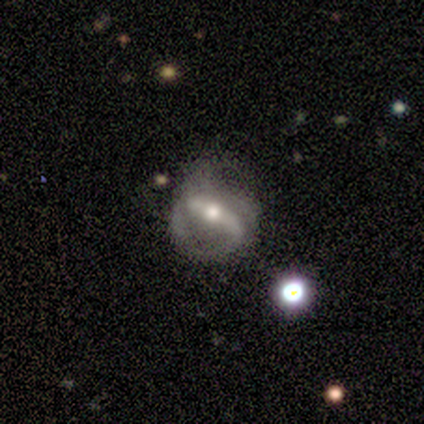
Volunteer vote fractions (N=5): Smooth or featured: featured or disk — 60% (smooth — 20%)
Edge-on disk: no — 67% (yes — 33%)
Bar: strong — 50% (tied with weak — 50%)
Spiral arms: yes — 50% (tied with no — 50%)
Spiral winding: loose — 100%
Spiral arm count: 1 — 100%
Bulge size: moderate — 100%
Merging: major disturbance — 50% (none — 25%)